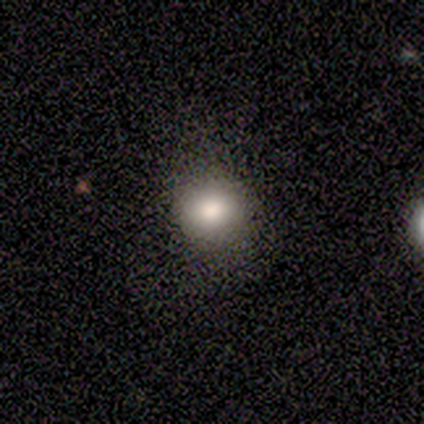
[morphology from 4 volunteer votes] A smooth galaxy with no disk features (75%) that is round (67%). Merging: none (67%).